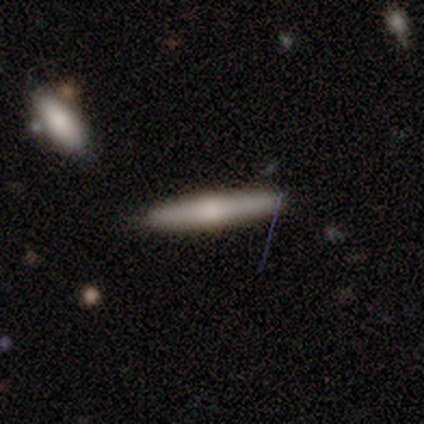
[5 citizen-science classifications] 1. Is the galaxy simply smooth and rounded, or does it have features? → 80% smooth, 20% featured or disk, 0% star or artifact.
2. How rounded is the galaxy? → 75% cigar-shaped, 25% in between, 0% round.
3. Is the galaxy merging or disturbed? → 80% none, 20% minor disturbance, 0% major disturbance, 0% merger.